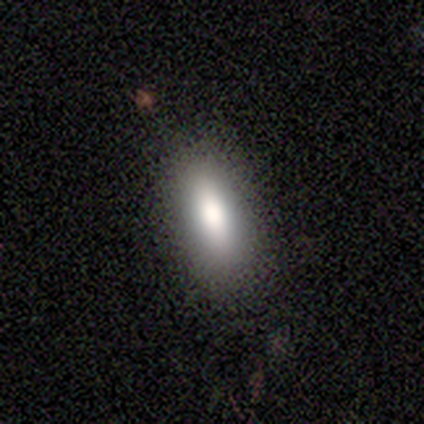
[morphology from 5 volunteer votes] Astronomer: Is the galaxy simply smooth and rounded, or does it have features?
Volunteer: smooth — 80%.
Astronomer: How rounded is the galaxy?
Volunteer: in between — 75%.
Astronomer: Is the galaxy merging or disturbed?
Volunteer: none — 100%.